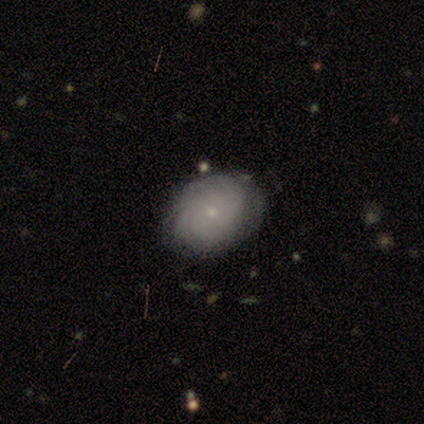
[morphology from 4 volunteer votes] Smooth or featured? 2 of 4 (50%, tied with featured or disk) said smooth. How rounded? 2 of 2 (100%) said round. Merging? 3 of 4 (75%) said none.